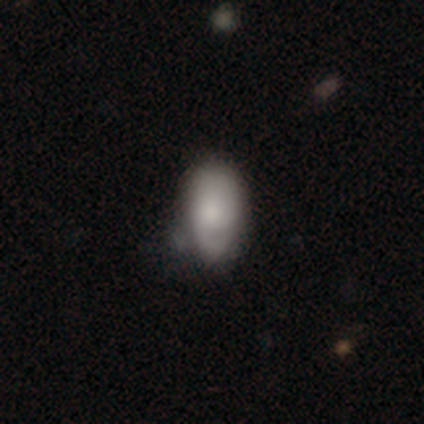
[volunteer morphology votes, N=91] Volunteers were most divided on "merging": minor disturbance: 52%, none: 39%, merger: 6%, major disturbance: 3%. More confident: how rounded — in between (87%); smooth or featured — smooth (68%).